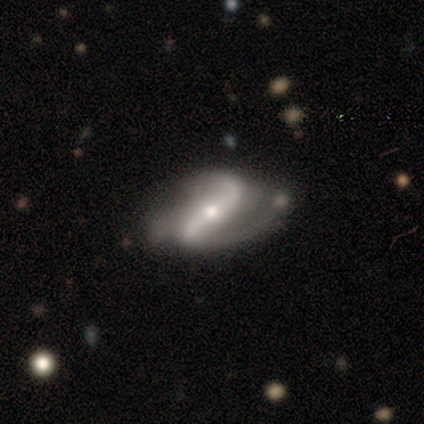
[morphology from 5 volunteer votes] Smooth or featured? 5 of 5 (100%) said featured or disk. Edge-on disk? 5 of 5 (100%) said no. Bar? 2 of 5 (40%, tied with weak) said strong. Spiral arms? 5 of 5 (100%) said yes. Spiral winding? 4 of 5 (80%) said loose. Spiral arm count? 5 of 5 (100%) said 2. Bulge size? 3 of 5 (60%) said small. Merging? 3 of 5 (60%) said none.